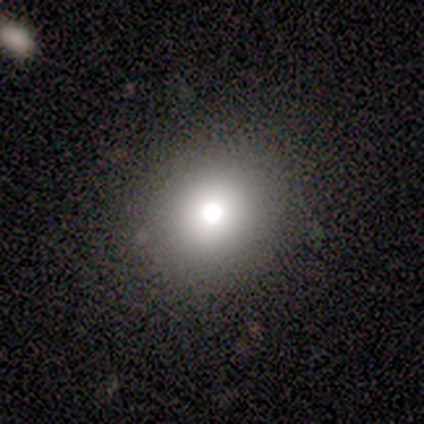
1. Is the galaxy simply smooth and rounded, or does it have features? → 67% smooth, 22% star or artifact, 11% featured or disk.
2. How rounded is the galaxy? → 83% round, 17% in between, 0% cigar-shaped.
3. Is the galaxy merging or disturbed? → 100% none, 0% minor disturbance, 0% major disturbance, 0% merger.